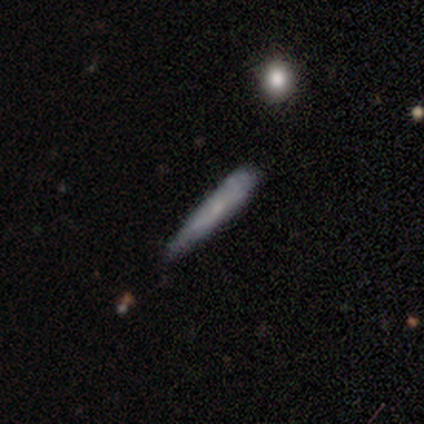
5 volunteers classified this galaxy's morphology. Q: Smooth or featured?
A: smooth (60%); runner-up: featured or disk (40%)
Q: How rounded?
A: cigar-shaped (100%)
Q: Merging?
A: none (80%); runner-up: minor disturbance (20%)